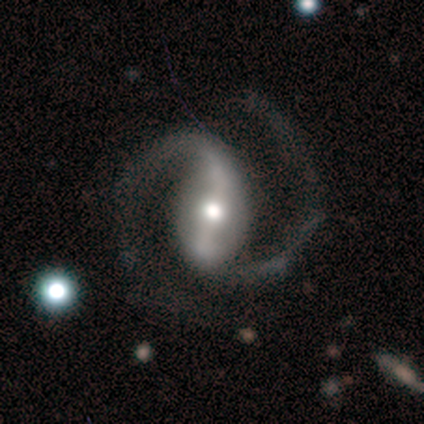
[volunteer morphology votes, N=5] Q: Smooth or featured?
A: featured or disk (80%); runner-up: star or artifact (20%)
Q: Edge-on disk?
A: no (100%)
Q: Bar?
A: strong (75%); runner-up: weak (25%)
Q: Spiral arms?
A: yes (100%)
Q: Spiral winding?
A: medium (50%); runner-up: tight (25%)
Q: Spiral arm count?
A: 2 (100%)
Q: Bulge size?
A: moderate (50%); runner-up: dominant (25%)
Q: Merging?
A: none (75%); runner-up: minor disturbance (25%)